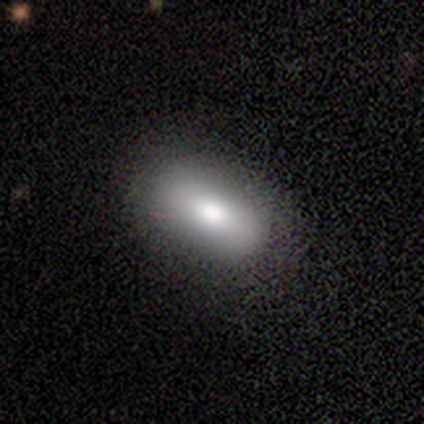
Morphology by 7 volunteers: type=smooth (100%); roundness=in between (100%); merging=none (86%).